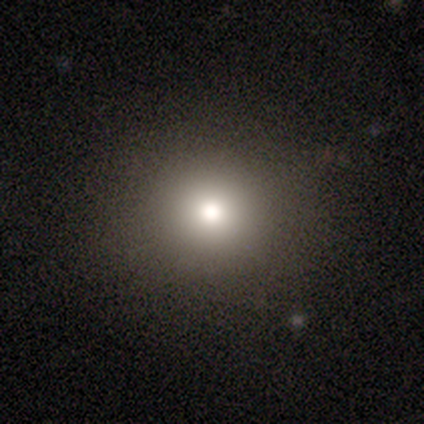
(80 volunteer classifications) Morphology: type=smooth (71%); roundness=round (93%); merging=none (88%).